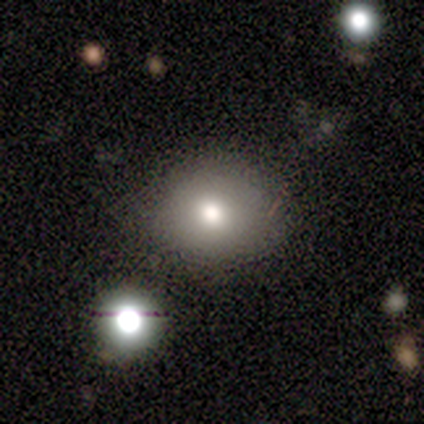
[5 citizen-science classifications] Smooth or featured? smooth (80%)
How rounded? round (100%)
Merging? none (100%)